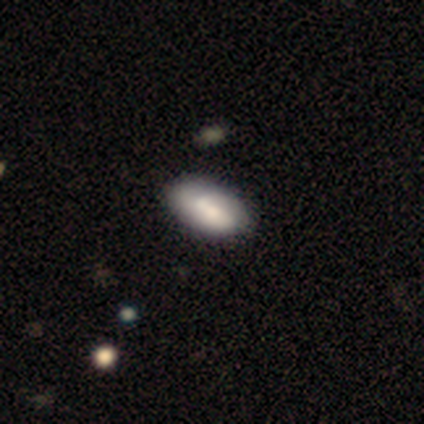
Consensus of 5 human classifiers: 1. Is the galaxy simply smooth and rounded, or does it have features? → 80% smooth, 20% featured or disk, 0% star or artifact.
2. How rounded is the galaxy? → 100% in between, 0% round, 0% cigar-shaped.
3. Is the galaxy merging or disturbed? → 80% none, 20% minor disturbance, 0% major disturbance, 0% merger.